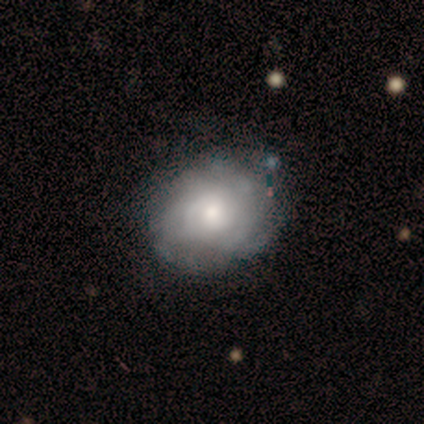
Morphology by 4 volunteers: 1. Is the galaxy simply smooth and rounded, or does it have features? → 50% smooth (tied), 50% featured or disk (tied), 0% star or artifact.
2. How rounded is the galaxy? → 100% in between, 0% round, 0% cigar-shaped.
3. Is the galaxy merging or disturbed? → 100% none, 0% minor disturbance, 0% major disturbance, 0% merger.